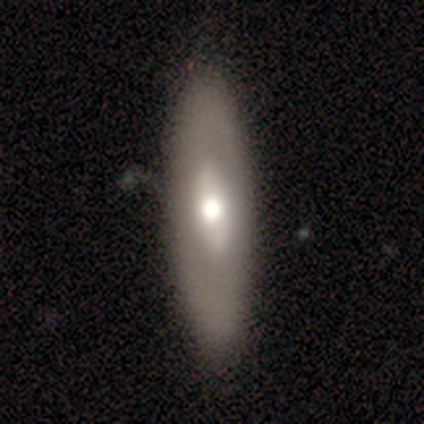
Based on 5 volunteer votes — Smooth or featured? 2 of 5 (40%, tied with featured or disk) said smooth. How rounded? 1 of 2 (50%, tied with cigar-shaped) said in between. Merging? 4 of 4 (100%) said none.